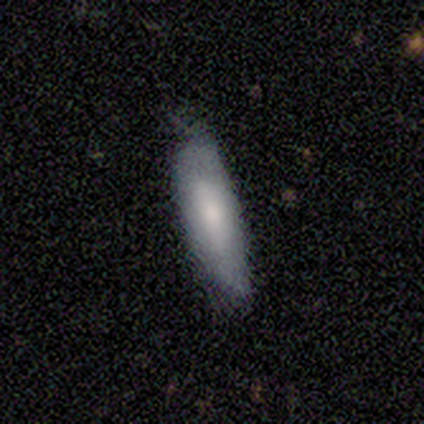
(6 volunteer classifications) smooth_or_featured: smooth (p=1.00)
how_rounded: in between (p=0.83) [alt: cigar-shaped p=0.17]
merging: minor disturbance (p=0.67) [alt: none p=0.33]